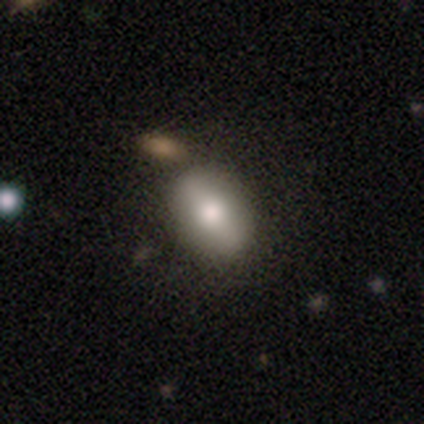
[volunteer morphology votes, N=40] Smooth or featured?
  - smooth: 70% *
  - featured or disk: 30%
  - star or artifact: 0%
How rounded?
  - in between: 75% *
  - round: 21%
  - cigar-shaped: 4%
Merging?
  - none: 62% *
  - merger: 15%
  - minor disturbance: 5%
  - major disturbance: 0%